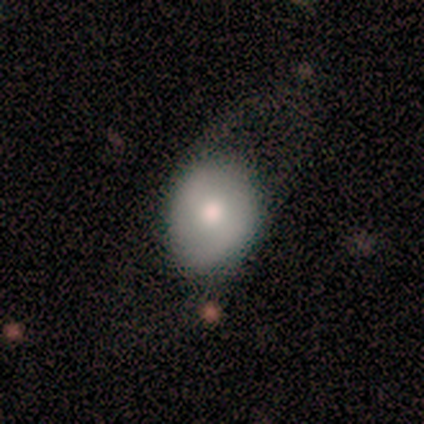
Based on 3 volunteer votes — A featured or disk galaxy (67%) with a strong bar (50%, tied with no), 2 (100%) medium (100%) spiral arms (100%) and a moderate central bulge (100%).

Vote fractions:
- Smooth or featured? featured or disk: 67% / smooth: 33% / star or artifact: 0%
- Edge-on disk? no: 100% / yes: 0%
- Bar? strong: 50% (tied) / no: 50% (tied) / weak: 0%
- Spiral arms? yes: 100% / no: 0%
- Spiral winding? medium: 100% / tight: 0% / loose: 0%
- Spiral arm count? 2: 100% / 1: 0% / 3: 0% / 4: 0% / more than 4: 0% / can't tell: 0%
- Bulge size? moderate: 100% / dominant: 0% / large: 0% / small: 0% / none: 0%
- Merging? none: 33% (tied) / major disturbance: 33% (tied) / merger: 33% (tied) / minor disturbance: 0%